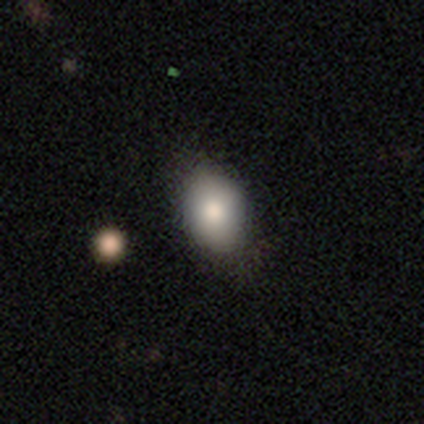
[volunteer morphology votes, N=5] A smooth galaxy with no disk features (80%) that is in between round and cigar-shaped (100%).

Vote fractions:
- Smooth or featured? smooth: 80% / featured or disk: 20% / star or artifact: 0%
- How rounded? in between: 100% / round: 0% / cigar-shaped: 0%
- Merging? none: 100% / minor disturbance: 0% / major disturbance: 0% / merger: 0%